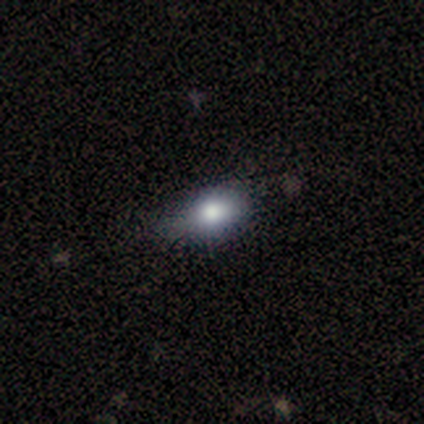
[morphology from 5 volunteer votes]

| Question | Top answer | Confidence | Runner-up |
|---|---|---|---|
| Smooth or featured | smooth | 60% | featured or disk (20%) |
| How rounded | round | 67% | in between (33%) |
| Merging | none | 100% | — |